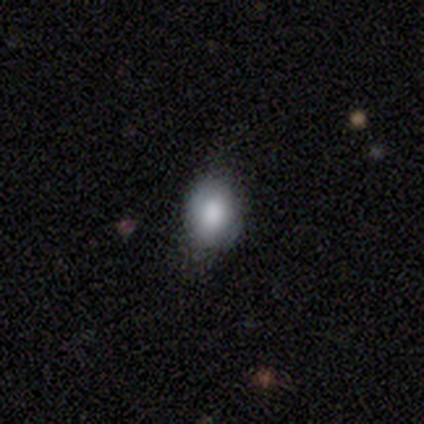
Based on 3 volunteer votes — Smooth or featured? 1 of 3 (33%, tied with featured or disk and star or artifact) said smooth. How rounded? 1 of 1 (100%) said in between. Merging? 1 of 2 (50%, tied with minor disturbance) said none.